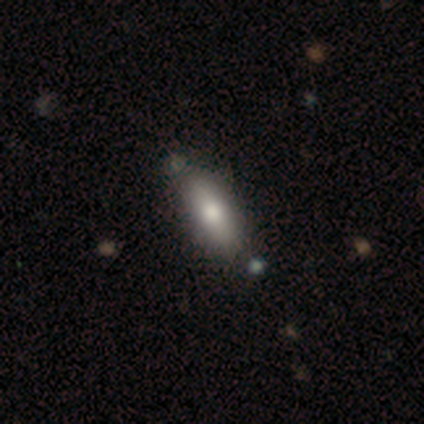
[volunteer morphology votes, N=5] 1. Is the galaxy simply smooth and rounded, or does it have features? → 60% smooth, 40% featured or disk, 0% star or artifact.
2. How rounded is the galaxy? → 67% in between, 33% cigar-shaped, 0% round.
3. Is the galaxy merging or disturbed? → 60% none, 20% minor disturbance, 20% major disturbance, 0% merger.